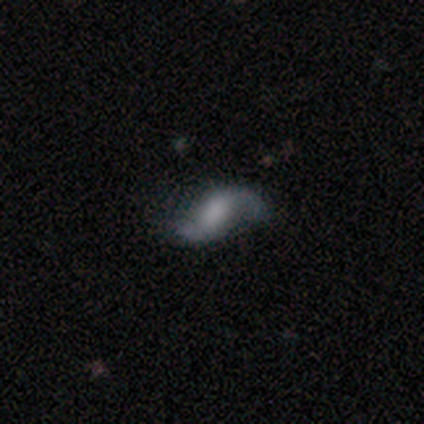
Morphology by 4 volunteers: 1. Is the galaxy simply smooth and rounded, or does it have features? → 100% featured or disk, 0% smooth, 0% star or artifact.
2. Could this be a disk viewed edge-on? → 100% no, 0% yes.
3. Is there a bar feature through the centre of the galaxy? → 75% weak, 25% no, 0% strong.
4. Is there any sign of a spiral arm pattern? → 100% yes, 0% no.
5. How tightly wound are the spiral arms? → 75% loose, 25% medium, 0% tight.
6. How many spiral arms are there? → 100% 2, 0% 1, 0% 3, 0% 4, 0% more than 4, 0% can't tell.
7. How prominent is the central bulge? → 75% large, 25% none, 0% dominant, 0% moderate, 0% small.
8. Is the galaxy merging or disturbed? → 50% none (tied), 50% minor disturbance (tied), 0% major disturbance, 0% merger.